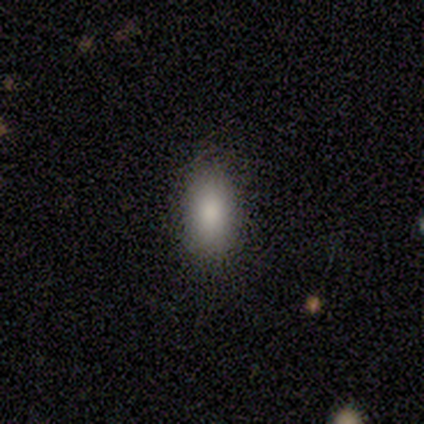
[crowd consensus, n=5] smooth 100%, featured or disk 0%, star or artifact 0%. Down the decision tree: how rounded — in between (100%); merging — none (100%).